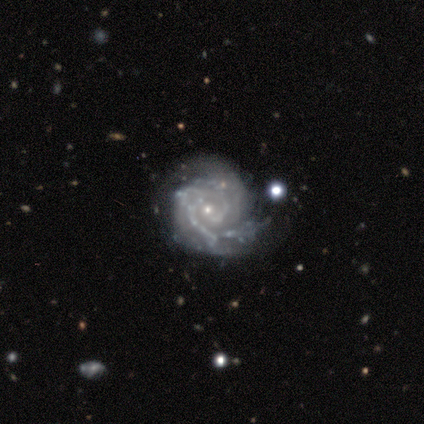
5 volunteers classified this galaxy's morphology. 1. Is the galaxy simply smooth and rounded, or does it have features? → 100% featured or disk, 0% smooth, 0% star or artifact.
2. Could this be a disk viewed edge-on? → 100% no, 0% yes.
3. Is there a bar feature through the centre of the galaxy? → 100% no, 0% strong, 0% weak.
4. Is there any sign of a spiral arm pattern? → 100% yes, 0% no.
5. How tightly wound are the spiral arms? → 100% tight, 0% medium, 0% loose.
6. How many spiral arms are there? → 40% 2 (tied), 40% 3 (tied), 20% 1, 0% 4, 0% more than 4, 0% can't tell.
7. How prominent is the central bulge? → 100% small, 0% dominant, 0% large, 0% moderate, 0% none.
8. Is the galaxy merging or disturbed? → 100% none, 0% minor disturbance, 0% major disturbance, 0% merger.